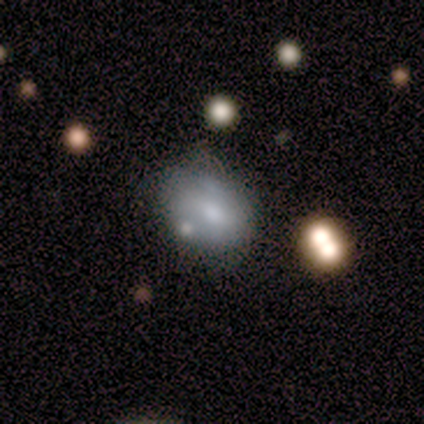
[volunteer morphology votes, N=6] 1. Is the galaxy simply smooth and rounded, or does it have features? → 67% smooth, 33% featured or disk, 0% star or artifact.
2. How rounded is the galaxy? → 50% round (tied), 50% in between (tied), 0% cigar-shaped.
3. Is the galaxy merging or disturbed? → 50% minor disturbance, 33% none, 17% major disturbance, 0% merger.